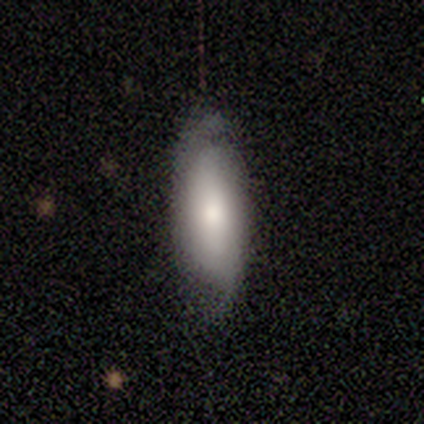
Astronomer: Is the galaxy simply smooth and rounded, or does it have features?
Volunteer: smooth — 80%.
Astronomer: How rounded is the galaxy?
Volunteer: in between — 75%.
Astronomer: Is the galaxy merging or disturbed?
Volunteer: minor disturbance — 40%, tied with major disturbance at 40%.